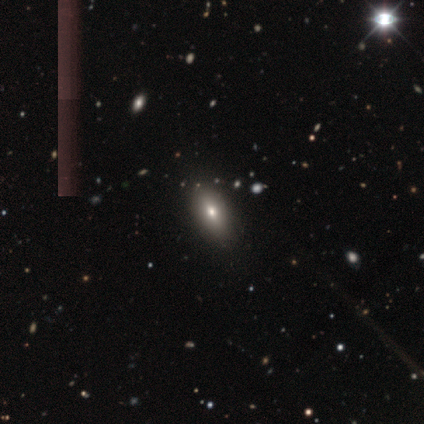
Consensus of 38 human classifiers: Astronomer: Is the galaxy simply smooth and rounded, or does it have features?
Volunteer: smooth — 63%.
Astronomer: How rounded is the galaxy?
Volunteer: in between — 79%.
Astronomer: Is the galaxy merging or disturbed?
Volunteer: none — 84%.